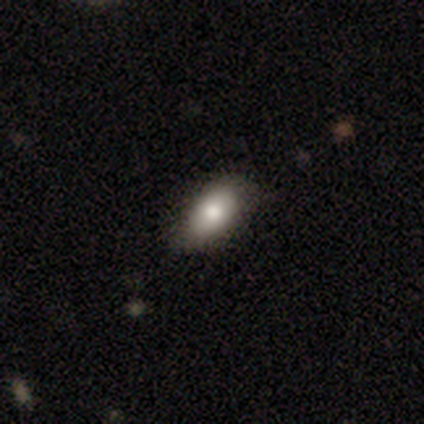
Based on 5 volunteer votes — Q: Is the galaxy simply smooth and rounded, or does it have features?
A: smooth — 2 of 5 (40%, tied with featured or disk).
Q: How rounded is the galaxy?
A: in between — 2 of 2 (100%).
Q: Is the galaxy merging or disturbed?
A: none — 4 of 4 (100%).